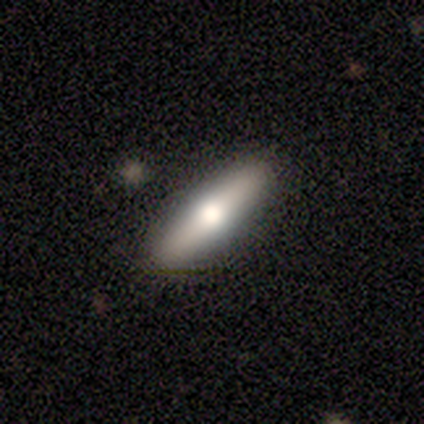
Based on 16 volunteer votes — A smooth galaxy with no disk features (56%) that is cigar-shaped (89%).

Vote fractions:
- Smooth or featured? smooth: 56% / featured or disk: 44% / star or artifact: 0%
- How rounded? cigar-shaped: 89% / in between: 11% / round: 0%
- Merging? none: 94% / merger: 6% / minor disturbance: 0% / major disturbance: 0%